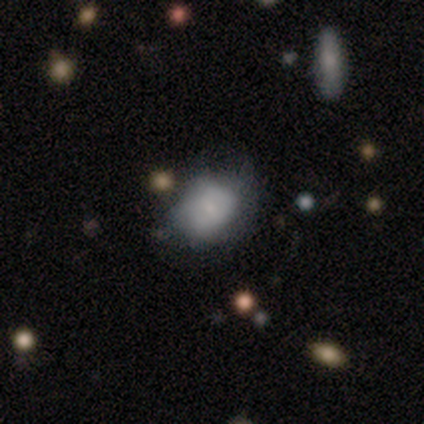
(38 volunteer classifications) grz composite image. It shows a smooth galaxy with no disk features (53%) that is in between round and cigar-shaped (65%). Merging: minor disturbance (38%).